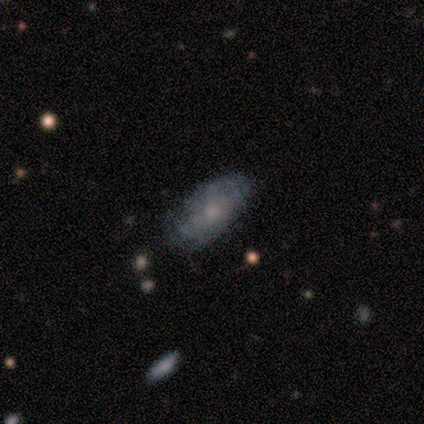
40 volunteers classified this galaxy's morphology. This is possibly a smooth galaxy (57%). How rounded: clearly in between (96%). Merging: likely none (79%).